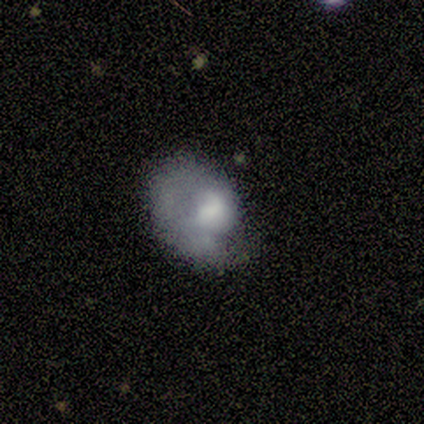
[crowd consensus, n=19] smooth 53%, featured or disk 37%, star or artifact 11%. Down the decision tree: how rounded — in between (70%); merging — minor disturbance (29%, tied with major disturbance).